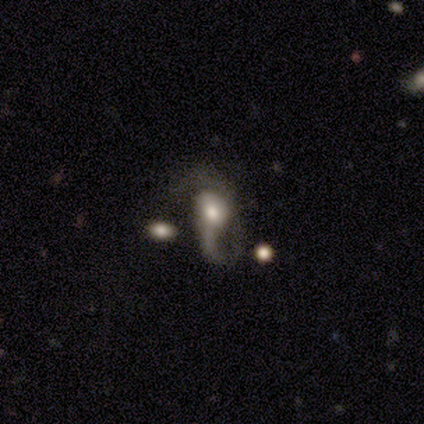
Overall: featured or disk (100%). Edge-on disk: no (100%). Bar: no (80%). Spiral arms: yes (80%). Spiral arm count: 1 (75%). Spiral winding: loose (100%). Bulge size: moderate (80%). Merging: major disturbance (60%; none 20%).